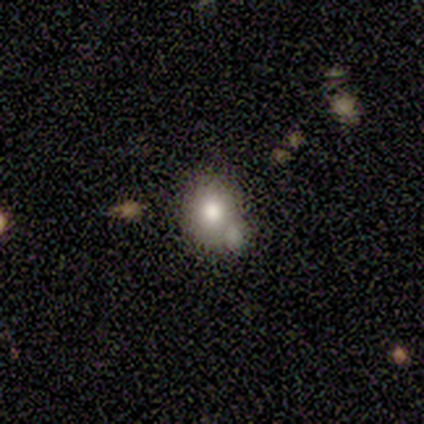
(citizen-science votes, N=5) A smooth galaxy with no disk features (80%) that is round (50%, tied with in between). Merging: minor disturbance (60%).